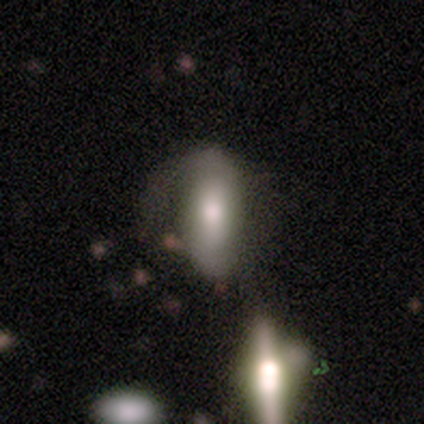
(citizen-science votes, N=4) smooth_or_featured: smooth (p=0.75) [alt: featured or disk p=0.25]
how_rounded: in between (p=1.00)
merging: major disturbance (p=0.75) [alt: minor disturbance p=0.25]